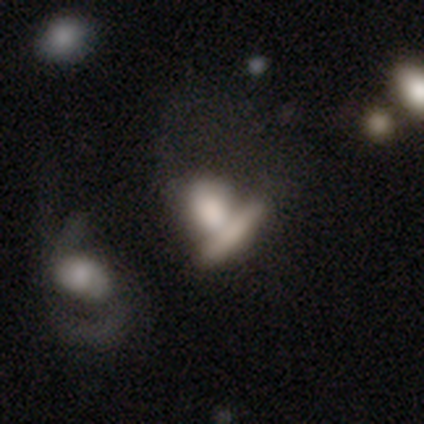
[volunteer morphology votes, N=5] Volunteers were most divided on "smooth or featured" (2-way tie): smooth: 40%, featured or disk: 40%, star or artifact: 20%. More confident: how rounded — in between (100%); merging — merger (75%).